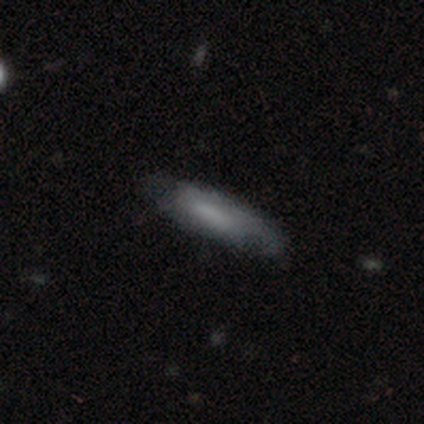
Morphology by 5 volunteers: smooth 80%, featured or disk 20%, star or artifact 0%. Down the decision tree: how rounded — cigar-shaped (100%); merging — none (80%).